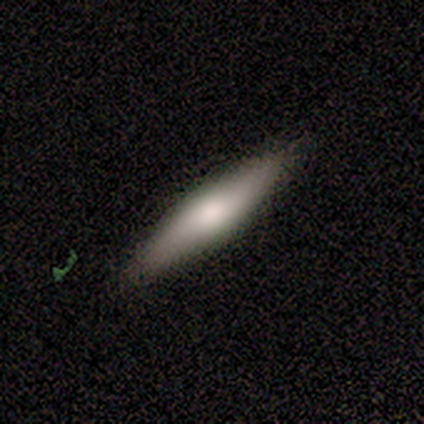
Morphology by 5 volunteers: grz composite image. It shows a featured or disk galaxy (60%) viewed edge-on (100%) with a rounded central bulge (67%). Merging: none (80%).